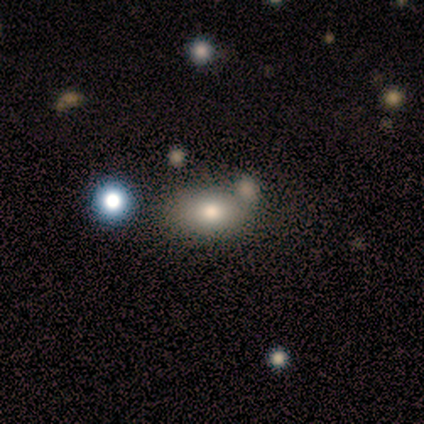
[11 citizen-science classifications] Smooth or featured? 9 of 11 (82%) said smooth. How rounded? 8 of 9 (89%) said in between. Merging? 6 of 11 (55%) said none.